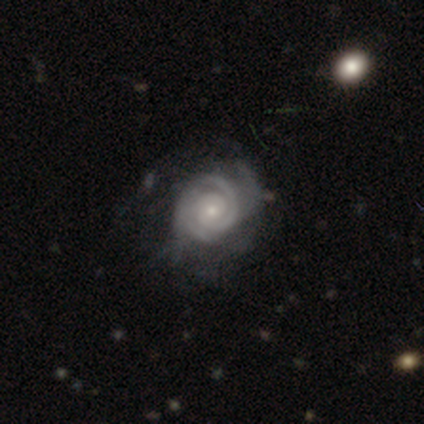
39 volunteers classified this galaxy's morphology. A featured or disk galaxy (92%) with no bar (94%), 2 (33%, tied with can't tell) tight (89%) spiral arms (100%) and a small central bulge (72%).

Vote fractions:
- Smooth or featured? featured or disk: 92% / smooth: 5% / star or artifact: 3%
- Edge-on disk? no: 100% / yes: 0%
- Bar? no: 94% / weak: 6% / strong: 0%
- Spiral arms? yes: 100% / no: 0%
- Spiral winding? tight: 89% / medium: 11% / loose: 0%
- Spiral arm count? 2: 33% (tied) / can't tell: 33% (tied) / 3: 19% / 1: 8% / 4: 6% / more than 4: 0%
- Bulge size? small: 72% / moderate: 19% / large: 6% / none: 3% / dominant: 0%
- Merging? none: 55% / major disturbance: 21% / minor disturbance: 18% / merger: 5%